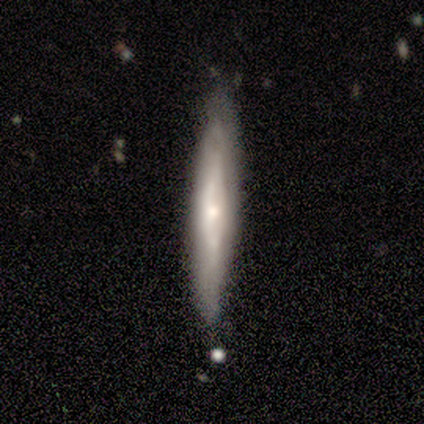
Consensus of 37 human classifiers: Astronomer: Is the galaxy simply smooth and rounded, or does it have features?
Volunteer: featured or disk — 68%.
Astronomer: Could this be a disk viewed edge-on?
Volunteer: yes — 80%.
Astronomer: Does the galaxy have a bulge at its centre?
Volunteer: rounded — 75%.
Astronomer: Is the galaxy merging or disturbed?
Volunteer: none — 59%.